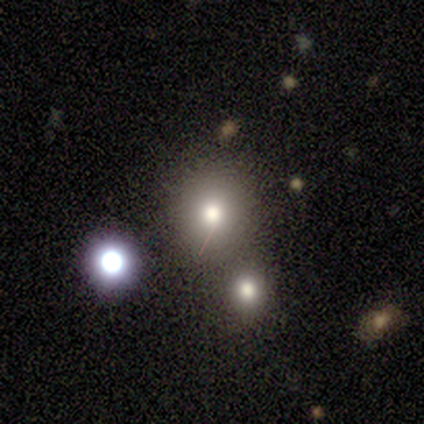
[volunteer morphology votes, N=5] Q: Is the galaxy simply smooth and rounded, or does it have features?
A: smooth — 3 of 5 (60%).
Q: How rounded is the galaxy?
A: in between — 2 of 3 (67%).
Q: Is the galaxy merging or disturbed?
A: none — 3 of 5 (60%).